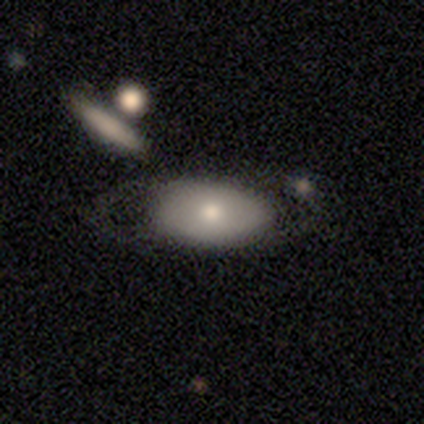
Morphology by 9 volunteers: This appears to be a featured or disk galaxy (67%) with no bar (75%), no spiral arms (75%) and a small central bulge (50%). Merging: none (62%).